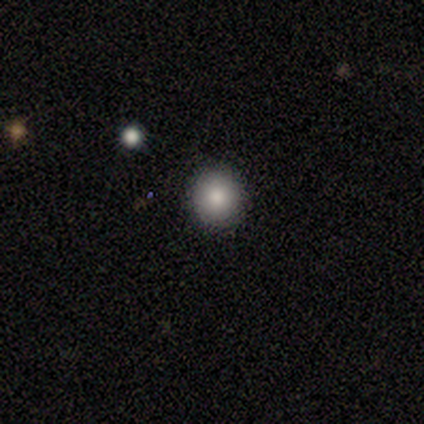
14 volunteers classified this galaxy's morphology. Volunteers were most divided on "merging": none: 79%, minor disturbance: 14%, major disturbance: 7%, merger: 0%. More confident: how rounded — round (100%); smooth or featured — smooth (86%).